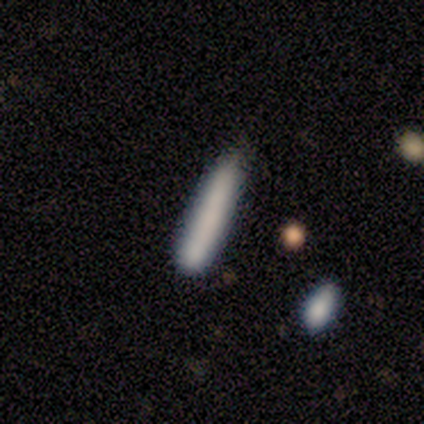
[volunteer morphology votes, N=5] Volunteers were most divided on "how rounded": cigar-shaped: 75%, in between: 25%, round: 0%. More confident: smooth or featured — smooth (80%); merging — none (80%).